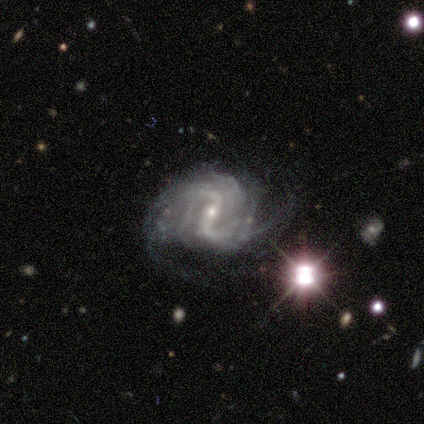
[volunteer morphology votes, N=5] Smooth or featured: featured or disk — 100%
Edge-on disk: no — 100%
Bar: weak — 60% (strong — 20%)
Spiral arms: yes — 80% (no — 20%)
Spiral winding: medium — 50% (tied with loose — 50%)
Spiral arm count: 2 — 100%
Bulge size: moderate — 60% (small — 40%)
Merging: none — 40% (tied with major disturbance — 40%)